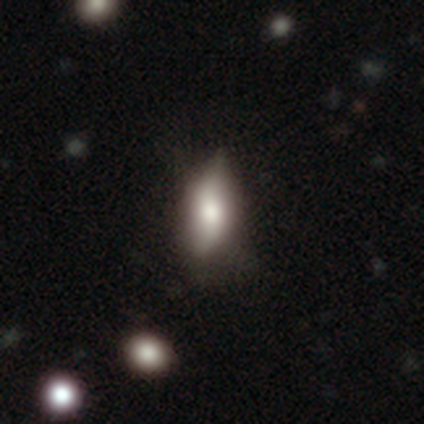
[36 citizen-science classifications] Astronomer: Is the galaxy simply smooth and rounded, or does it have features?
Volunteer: smooth — 53%.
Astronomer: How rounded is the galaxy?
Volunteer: in between — 79%.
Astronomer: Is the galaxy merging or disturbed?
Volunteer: none — 59% (runner-up: minor disturbance, 41%).